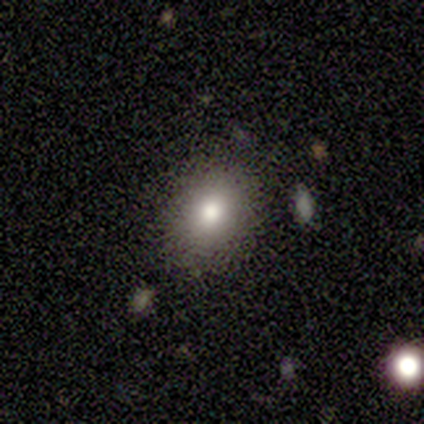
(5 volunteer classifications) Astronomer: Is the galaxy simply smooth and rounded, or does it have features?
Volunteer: smooth — 60% (runner-up: featured or disk, 40%).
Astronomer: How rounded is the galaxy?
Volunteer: round — 100%.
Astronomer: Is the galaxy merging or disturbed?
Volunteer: none — 100%.